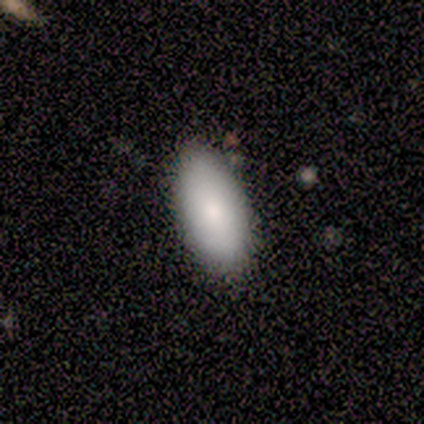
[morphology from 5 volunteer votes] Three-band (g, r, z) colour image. It shows a smooth galaxy with no disk features (100%) that is in between round and cigar-shaped (100%). Merging: none (80%).